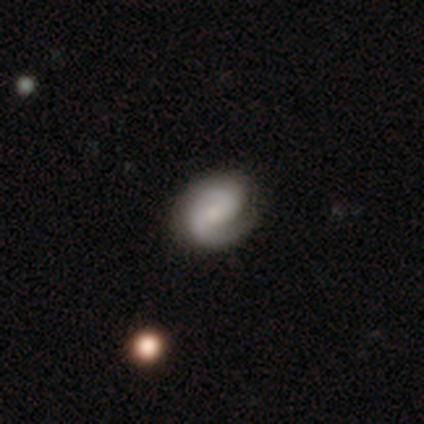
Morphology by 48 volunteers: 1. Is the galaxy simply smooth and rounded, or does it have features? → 81% featured or disk, 17% smooth, 2% star or artifact.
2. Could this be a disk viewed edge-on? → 100% no, 0% yes.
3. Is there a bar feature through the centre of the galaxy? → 51% no, 33% weak, 15% strong.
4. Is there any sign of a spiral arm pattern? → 97% yes, 3% no.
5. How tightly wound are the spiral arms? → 42% tight, 37% medium, 21% loose.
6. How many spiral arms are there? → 53% 2, 45% 1, 3% can't tell, 0% 3, 0% 4, 0% more than 4.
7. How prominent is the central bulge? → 44% small, 28% none, 26% moderate, 3% large, 0% dominant.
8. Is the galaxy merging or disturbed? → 68% none, 26% minor disturbance, 4% major disturbance, 2% merger.